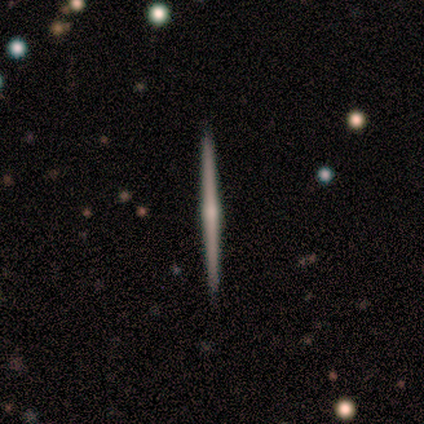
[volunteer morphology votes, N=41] Volunteers were most divided on "smooth or featured": featured or disk: 68%, smooth: 22%, star or artifact: 10%. More confident: edge-on disk — yes (100%); merging — none (95%); edge-on bulge — rounded (68%).